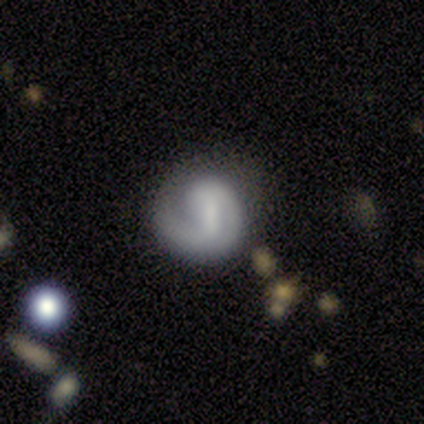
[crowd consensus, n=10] Overall: featured or disk (70%). Edge-on disk: no (100%). Bar: weak (71%). Spiral arms: yes (100%). Spiral arm count: 1 (71%). Spiral winding: tight (43%; medium 29%). Bulge size: none (86%). Merging: none (67%; major disturbance 33%).